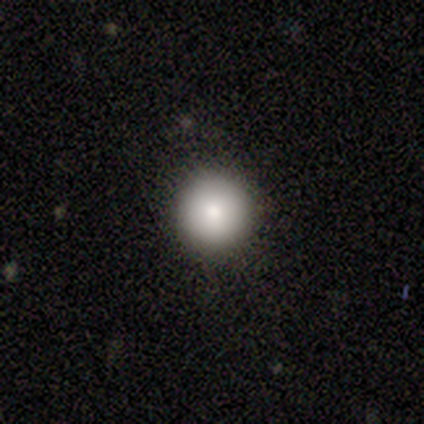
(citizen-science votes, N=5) Smooth or featured? smooth (80%)
How rounded? round (100%)
Merging? none (80%)